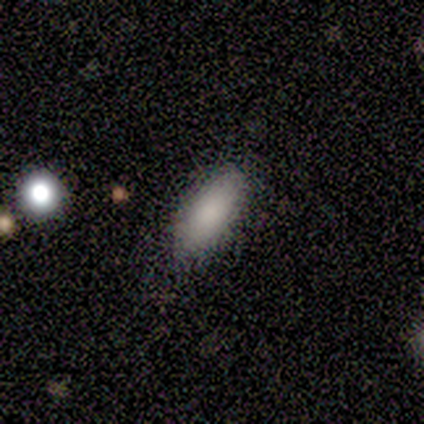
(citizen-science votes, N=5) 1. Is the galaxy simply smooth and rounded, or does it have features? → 100% smooth, 0% featured or disk, 0% star or artifact.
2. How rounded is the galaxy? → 80% in between, 20% cigar-shaped, 0% round.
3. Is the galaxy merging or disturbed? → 80% minor disturbance, 20% none, 0% major disturbance, 0% merger.